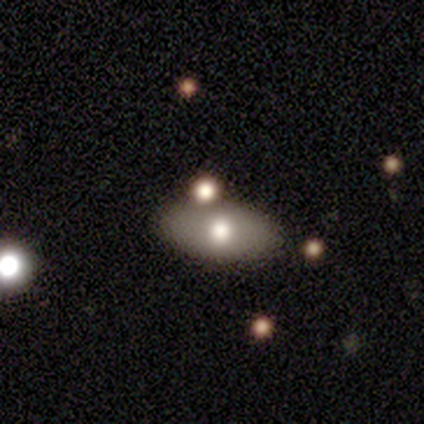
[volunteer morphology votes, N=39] type=smooth (72%); roundness=in between (89%); merging=none (81%).